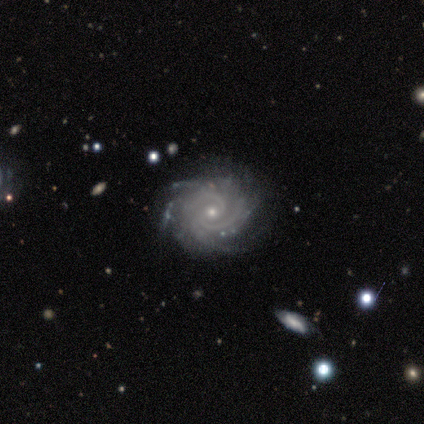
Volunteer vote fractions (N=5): Morphology: type=featured or disk (100%); edge-on=no (100%); bar=no (100%); spiral arms=yes (100%); winding=tight (100%); arm count=2 (40%, tied with 3); bulge=small (80%); merging=none (100%).